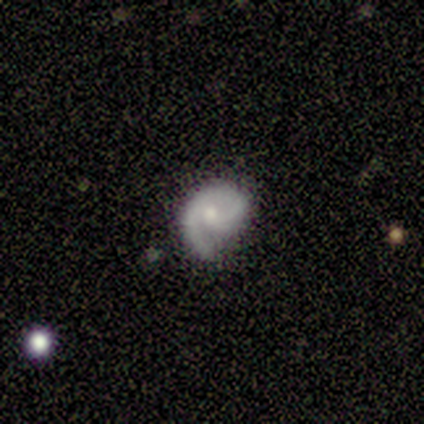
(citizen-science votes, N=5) Smooth or featured: featured or disk — 80% (smooth — 20%)
Edge-on disk: no — 100%
Bar: no — 75% (weak — 25%)
Spiral arms: yes — 100%
Spiral winding: medium — 75% (tight — 25%)
Spiral arm count: 1 — 50% (tied with 2 — 50%)
Bulge size: small — 100%
Merging: none — 60% (minor disturbance — 20%)